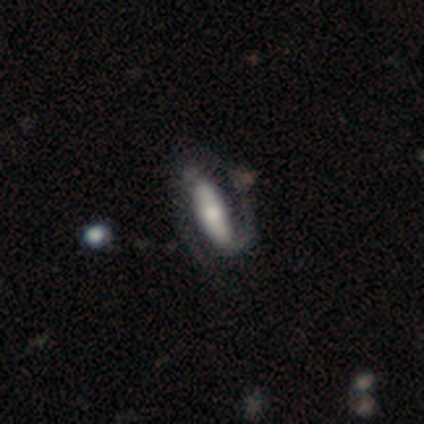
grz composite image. It shows a featured or disk galaxy (100%) with a strong bar (100%), 2 (100%) tight (100%) spiral arms (100%) and a small central bulge (100%). Merging: none (100%).